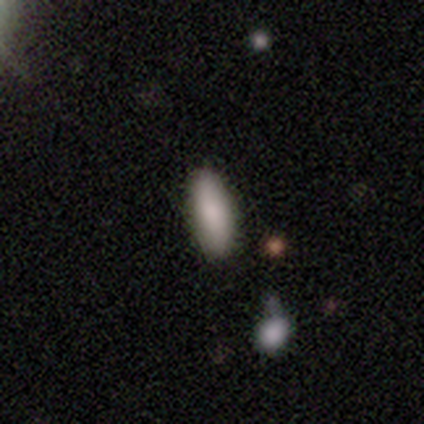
A smooth galaxy with no disk features (80%) that is in between round and cigar-shaped (75%).

Vote fractions:
- Smooth or featured? smooth: 80% / star or artifact: 20% / featured or disk: 0%
- How rounded? in between: 75% / cigar-shaped: 25% / round: 0%
- Merging? none: 75% / minor disturbance: 25% / major disturbance: 0% / merger: 0%